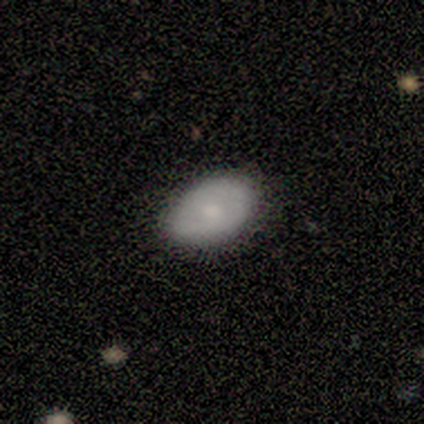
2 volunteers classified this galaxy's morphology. Smooth or featured?
  - smooth: 100% *
  - featured or disk: 0%
  - star or artifact: 0%
How rounded?
  - in between: 100% *
  - round: 0%
  - cigar-shaped: 0%
Merging?
  - none: 100% *
  - minor disturbance: 0%
  - major disturbance: 0%
  - merger: 0%